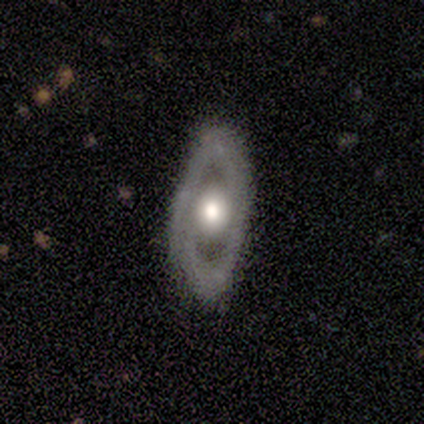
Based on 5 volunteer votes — Morphology: type=featured or disk (80%); edge-on=no (100%); bar=no (75%); spiral arms=no (75%); bulge=moderate (50%); merging=none (80%).